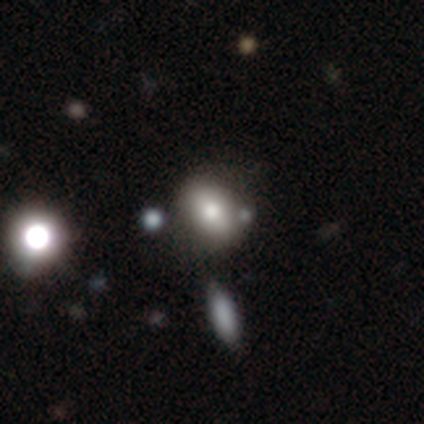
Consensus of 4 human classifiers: Overall: smooth (75%). How rounded: in between (67%; round 33%). Merging: major disturbance (50%; none 25%).